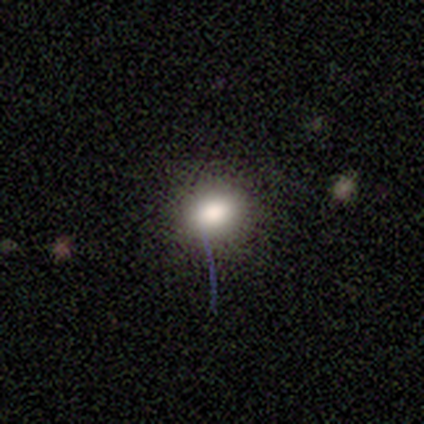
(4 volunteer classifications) smooth 75%, star or artifact 25%, featured or disk 0%. Down the decision tree: how rounded — round (100%); merging — none (100%).